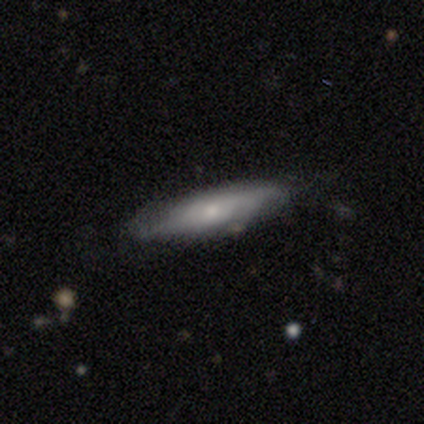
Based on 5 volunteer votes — Smooth or featured? featured or disk (60%)
Edge-on disk? no (100%)
Bar? strong (33%, tied with weak and no)
Spiral arms? yes (100%)
Spiral winding? tight (33%, tied with medium and loose)
Spiral arm count? 2 (33%, tied with 4 and can't tell)
Bulge size? small (100%)
Merging? none (80%)